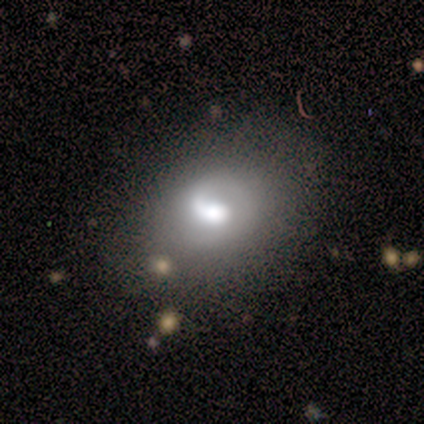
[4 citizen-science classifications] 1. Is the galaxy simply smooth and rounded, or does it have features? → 75% featured or disk, 25% smooth, 0% star or artifact.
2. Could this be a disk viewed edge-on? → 100% no, 0% yes.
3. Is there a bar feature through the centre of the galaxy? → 67% weak, 33% strong, 0% no.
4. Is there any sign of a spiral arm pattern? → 67% yes, 33% no.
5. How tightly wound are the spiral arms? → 100% loose, 0% tight, 0% medium.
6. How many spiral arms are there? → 100% 1, 0% 2, 0% 3, 0% 4, 0% more than 4, 0% can't tell.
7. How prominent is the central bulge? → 67% moderate, 33% large, 0% dominant, 0% small, 0% none.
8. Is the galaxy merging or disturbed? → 75% none, 25% major disturbance, 0% minor disturbance, 0% merger.